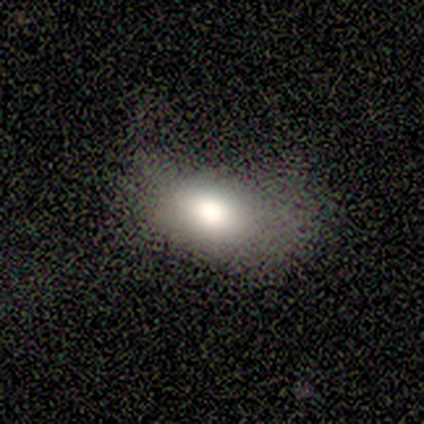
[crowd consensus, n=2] smooth 100%, featured or disk 0%, star or artifact 0%. Down the decision tree: how rounded — in between (100%); merging — none (50%, tied with major disturbance).